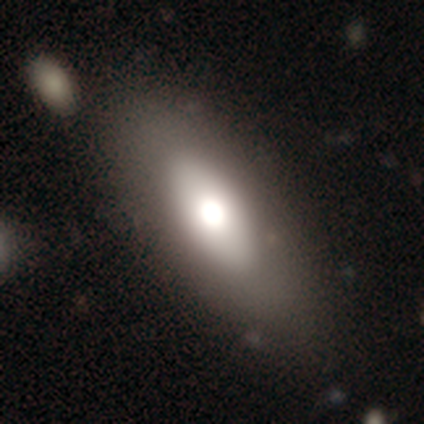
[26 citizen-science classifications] Overall: smooth (73%). How rounded: in between (79%). Merging: merger (32%; none 27%).